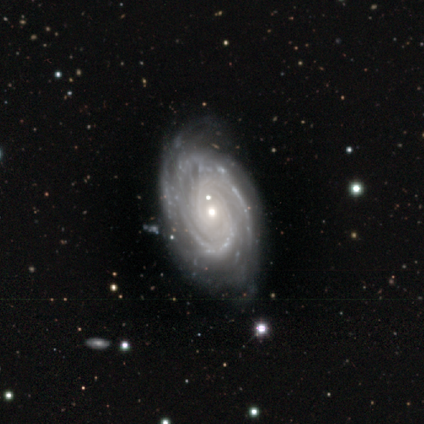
Smooth or featured? featured or disk (80%)
Edge-on disk? no (100%)
Bar? no (100%)
Spiral arms? yes (100%)
Spiral winding? tight (75%)
Spiral arm count? can't tell (75%)
Bulge size? small (75%)
Merging? none (80%)